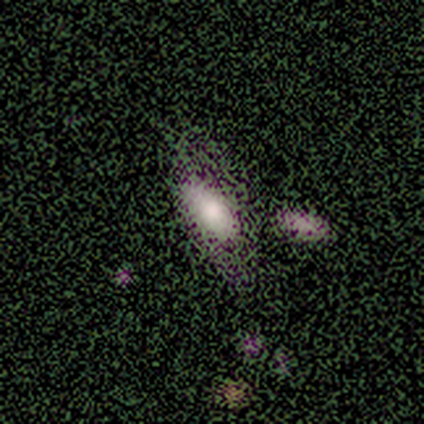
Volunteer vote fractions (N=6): This is clearly a smooth galaxy (83%). How rounded: likely in between (60%). Merging: marginally none (40%, tied with minor disturbance).